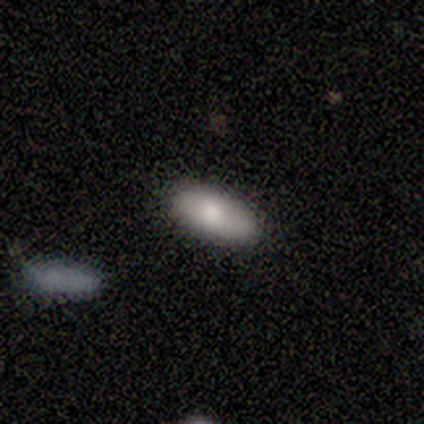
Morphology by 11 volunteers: Q: Smooth or featured?
A: smooth (82%); runner-up: featured or disk (18%)
Q: How rounded?
A: in between (100%)
Q: Merging?
A: none (73%); runner-up: minor disturbance (27%)